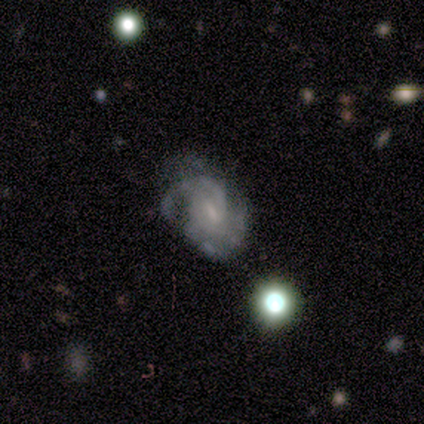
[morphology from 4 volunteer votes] featured or disk 75%, smooth 25%, star or artifact 0%. Down the decision tree: edge-on disk — no (100%); bar — weak (100%); spiral arms — yes (100%); spiral arm count — 2 (33%, tied with 3 and can't tell); spiral winding — medium (67%); bulge size — small (67%); merging — none (50%).